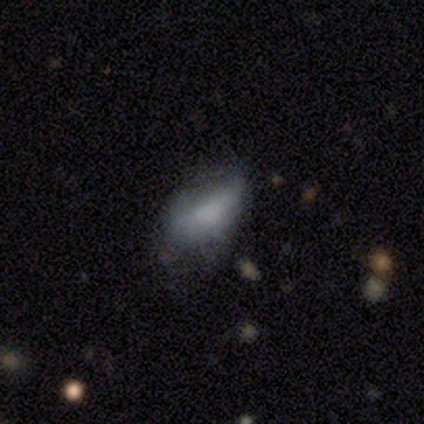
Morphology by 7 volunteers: Smooth or featured? smooth (71%)
How rounded? in between (80%)
Merging? minor disturbance (83%)